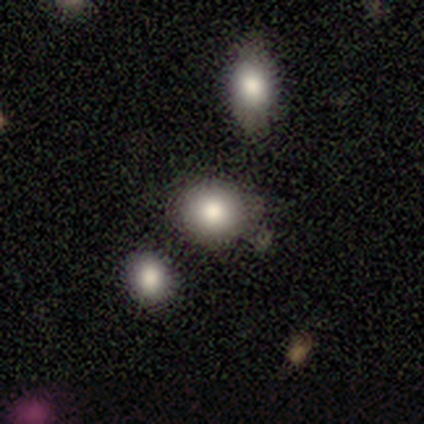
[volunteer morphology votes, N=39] This is likely a smooth galaxy (77%). How rounded: clearly round (80%). Merging: likely none (71%).